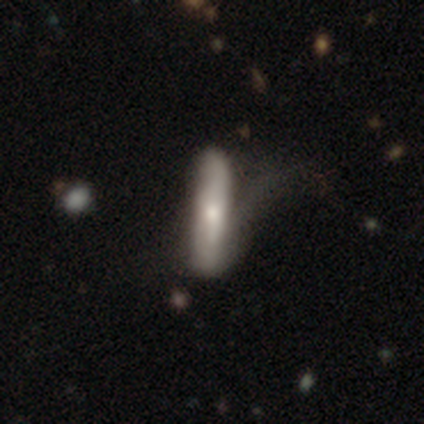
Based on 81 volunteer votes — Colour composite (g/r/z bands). It shows a smooth galaxy with no disk features (53%) that is cigar-shaped (91%). Merging: major disturbance (22%).